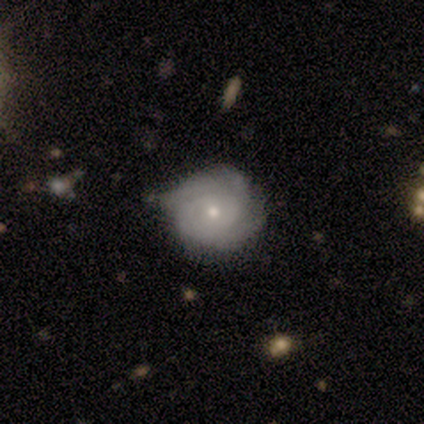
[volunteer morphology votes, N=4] This appears to be a featured or disk galaxy (100%) with no bar (75%), tight (67%) spiral arms (75%) and a small central bulge (75%). Merging: none (50%, tied with minor disturbance).